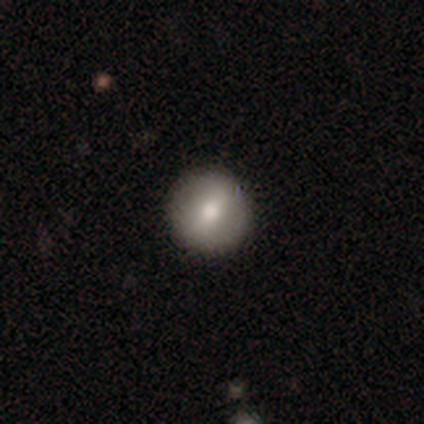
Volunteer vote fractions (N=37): Smooth or featured?
  - smooth: 57% *
  - featured or disk: 30%
  - star or artifact: 14%
How rounded?
  - round: 100% *
  - in between: 0%
  - cigar-shaped: 0%
Merging?
  - none: 97% *
  - minor disturbance: 3%
  - major disturbance: 0%
  - merger: 0%